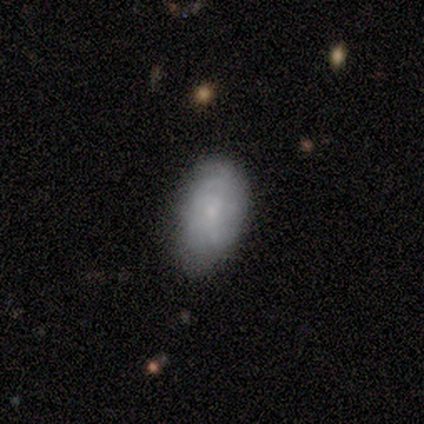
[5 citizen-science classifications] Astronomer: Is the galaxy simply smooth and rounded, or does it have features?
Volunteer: smooth — 100%.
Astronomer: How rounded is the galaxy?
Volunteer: in between — 100%.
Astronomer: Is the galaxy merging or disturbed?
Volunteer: none — 80%.